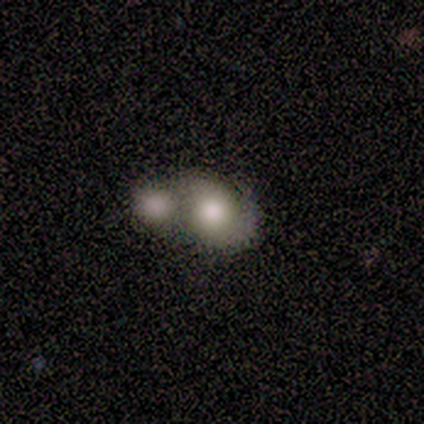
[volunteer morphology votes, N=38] This is likely a smooth galaxy (63%). How rounded: possibly round (50%). Merging: likely merger (74%).